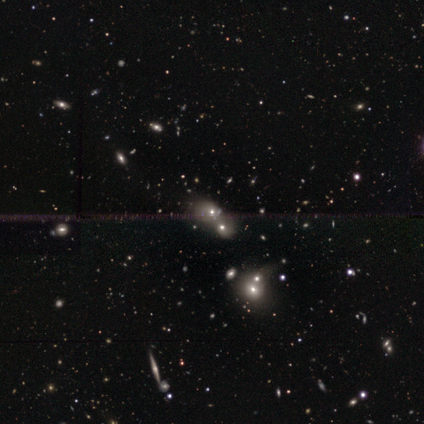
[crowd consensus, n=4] Overall: star or artifact (50%; smooth 25%).